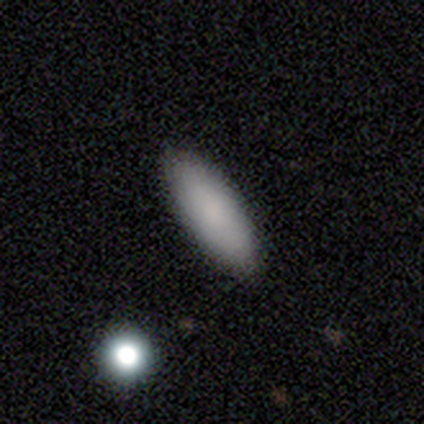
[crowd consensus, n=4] smooth-or-featured: smooth: 100% | featured or disk: 0% | star or artifact: 0%
  how-rounded: in between: 100% | round: 0% | cigar-shaped: 0%
  merging: none: 100% | minor disturbance: 0% | major disturbance: 0% | merger: 0%